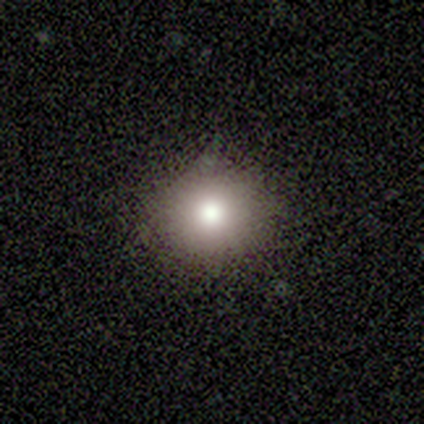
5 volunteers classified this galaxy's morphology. Smooth or featured? 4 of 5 (80%) said smooth. How rounded? 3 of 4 (75%) said round. Merging? 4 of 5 (80%) said none.